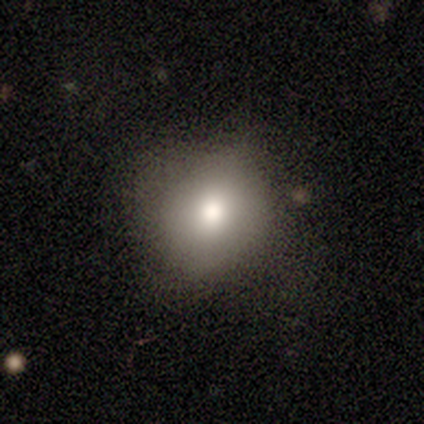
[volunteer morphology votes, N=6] Overall: smooth (83%). How rounded: round (100%). Merging: none (100%).